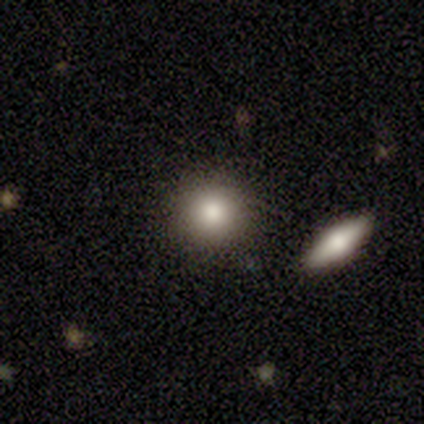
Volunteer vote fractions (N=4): Smooth or featured? smooth (75%)
How rounded? round (67%)
Merging? none (75%)